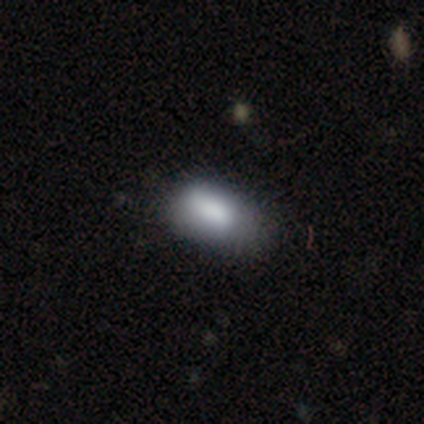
A smooth galaxy with no disk features (80%) that is in between round and cigar-shaped (100%). Merging: none (75%).